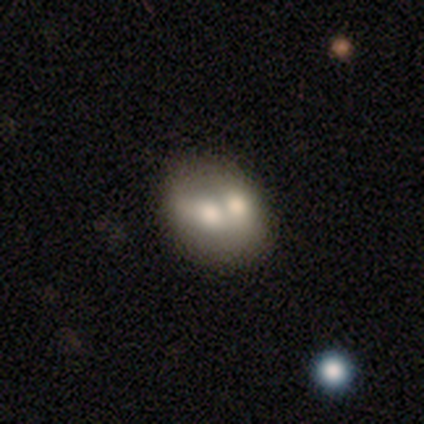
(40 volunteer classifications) smooth 57%, featured or disk 35%, star or artifact 8%. Down the decision tree: how rounded — round (61%); merging — merger (62%).